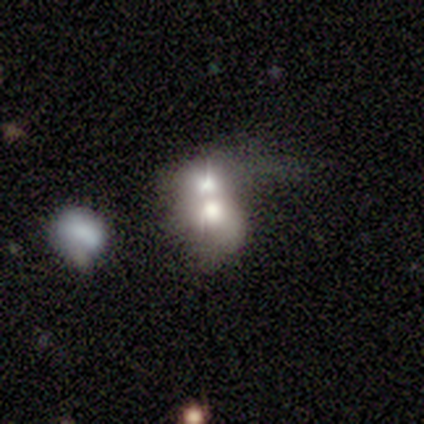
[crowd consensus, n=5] A smooth galaxy with no disk features (100%) that is in between round and cigar-shaped (80%).

Vote fractions:
- Smooth or featured? smooth: 100% / featured or disk: 0% / star or artifact: 0%
- How rounded? in between: 80% / round: 20% / cigar-shaped: 0%
- Merging? merger: 60% / none: 20% / minor disturbance: 20% / major disturbance: 0%